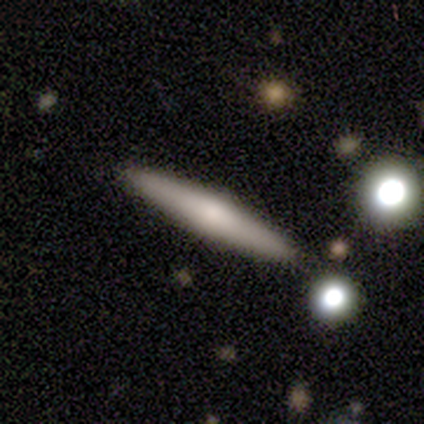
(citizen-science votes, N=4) smooth_or_featured: smooth (p=0.75) [alt: featured or disk p=0.25]
how_rounded: cigar-shaped (p=1.00)
merging: none (p=1.00)